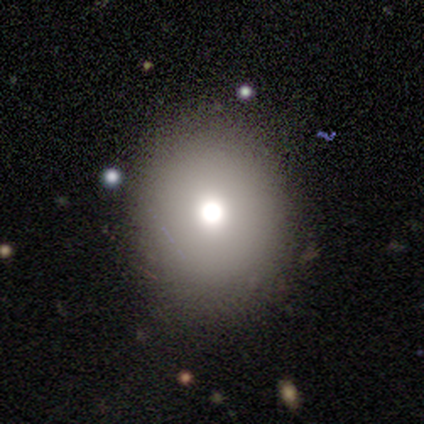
Overall: smooth (100%). How rounded: round (75%). Merging: none (50%; minor disturbance 25%).